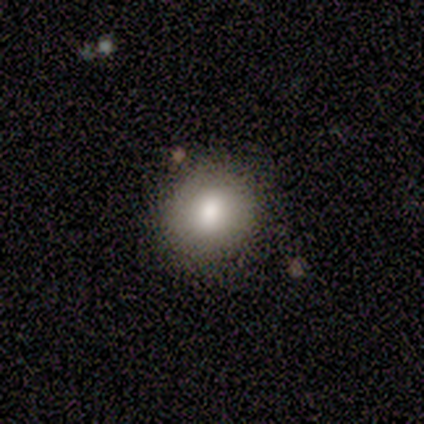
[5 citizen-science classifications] A smooth galaxy with no disk features (100%) that is round (100%). Merging: none (80%).